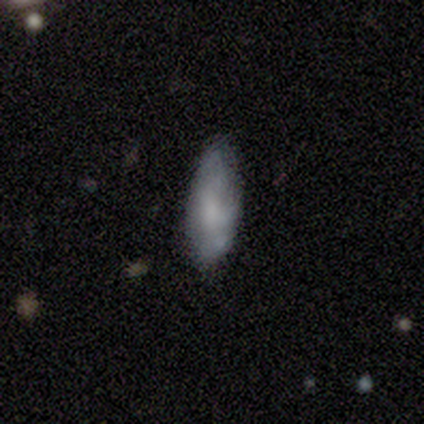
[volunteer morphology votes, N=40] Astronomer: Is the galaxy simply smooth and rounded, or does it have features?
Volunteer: featured or disk — 45% (runner-up: smooth, 42%).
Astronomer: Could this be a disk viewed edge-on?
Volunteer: no — 100%.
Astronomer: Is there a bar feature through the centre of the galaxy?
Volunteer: no — 94%.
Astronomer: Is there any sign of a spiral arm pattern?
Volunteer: no — 61% (runner-up: yes, 39%).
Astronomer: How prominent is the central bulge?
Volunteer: none — 50% (runner-up: moderate, 28%).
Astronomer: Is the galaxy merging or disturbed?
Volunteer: none — 43%.